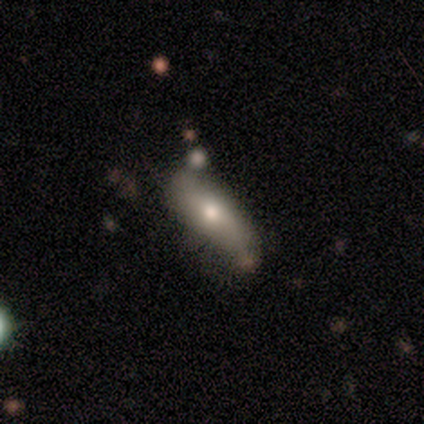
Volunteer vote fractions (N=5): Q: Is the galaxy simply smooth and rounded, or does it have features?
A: smooth — 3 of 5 (60%).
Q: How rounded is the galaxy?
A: cigar-shaped — 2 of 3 (67%).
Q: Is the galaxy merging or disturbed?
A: none — 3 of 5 (60%).